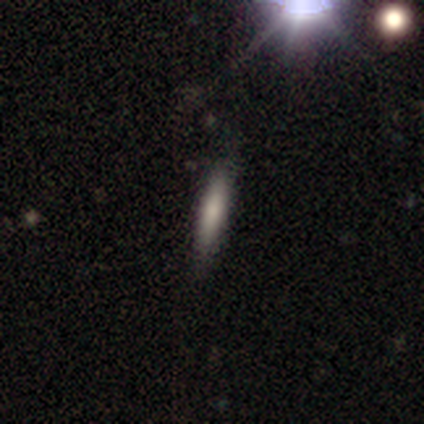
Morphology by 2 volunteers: type=smooth (50%, tied with featured or disk); roundness=cigar-shaped (100%); merging=none (100%).